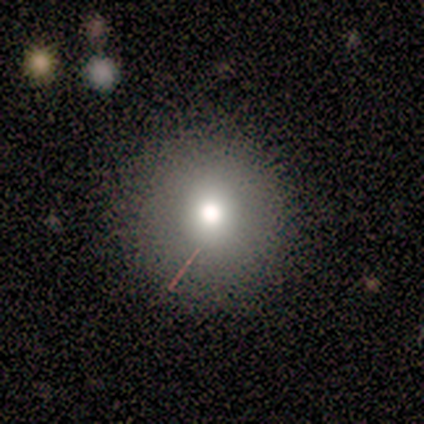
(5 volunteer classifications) Smooth or featured: smooth — 100%
How rounded: round — 100%
Merging: none — 100%